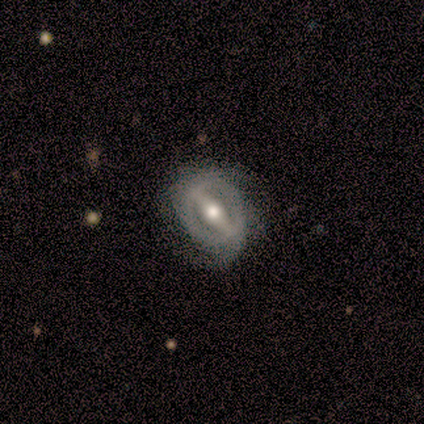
This appears to be a featured or disk galaxy (100%) with a strong bar (93%), no spiral arms (53%) and a moderate central bulge (93%). Merging: none (67%).